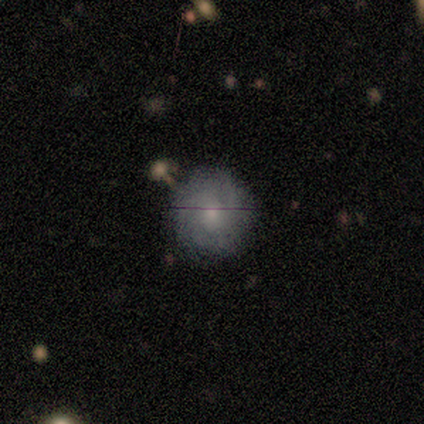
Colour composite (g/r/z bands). It shows a featured or disk galaxy (80%) with no bar (100%), 3 (50%, tied with can't tell) tight (75%) spiral arms (100%) and a moderate central bulge (100%). Merging: none (80%).